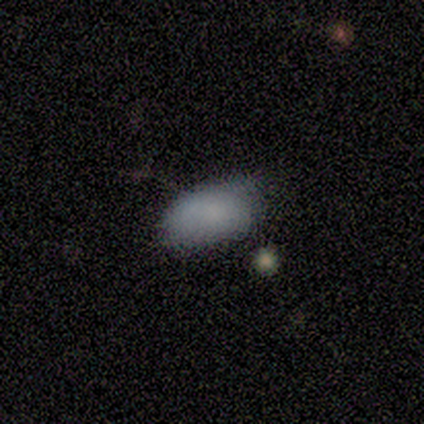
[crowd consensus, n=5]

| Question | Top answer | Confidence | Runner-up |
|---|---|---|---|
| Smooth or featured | smooth | 100% | — |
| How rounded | in between | 100% | — |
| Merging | none | 80% | minor disturbance (20%) |